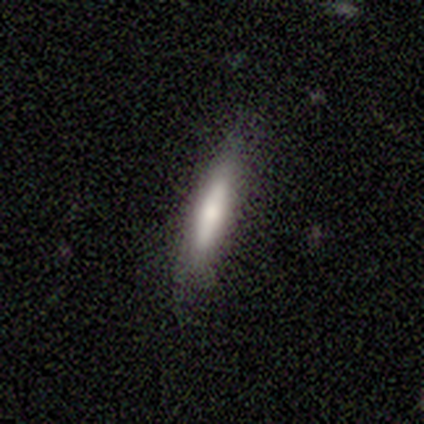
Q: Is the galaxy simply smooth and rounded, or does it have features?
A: smooth — 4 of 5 (80%).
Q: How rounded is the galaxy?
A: cigar-shaped — 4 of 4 (100%).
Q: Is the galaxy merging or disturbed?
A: none — 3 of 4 (75%).